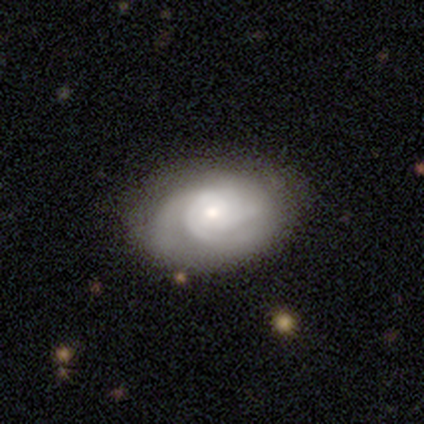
This is likely a featured or disk galaxy (72%). It is clearly not viewed edge-on (100%). Bar: likely no (72%). Spiral arm pattern: clearly yes (93%). Spiral arm count: marginally 3 (41%). Spiral winding: likely tight (63%). Central bulge: likely small (72%). Merging: likely none (74%).